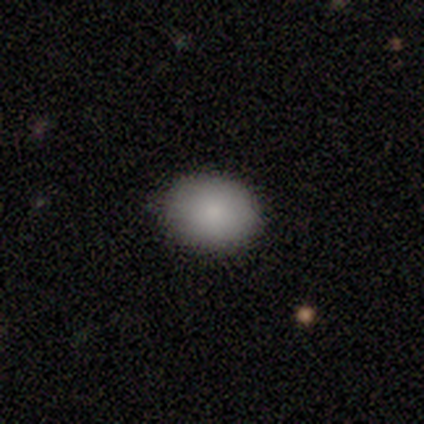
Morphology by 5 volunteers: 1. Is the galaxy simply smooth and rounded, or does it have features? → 100% smooth, 0% featured or disk, 0% star or artifact.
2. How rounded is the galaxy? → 80% in between, 20% round, 0% cigar-shaped.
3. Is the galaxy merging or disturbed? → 100% none, 0% minor disturbance, 0% major disturbance, 0% merger.